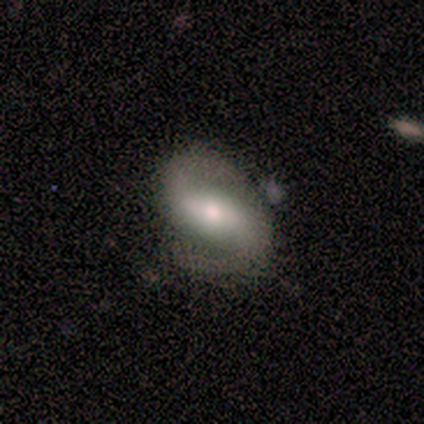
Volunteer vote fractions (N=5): Smooth or featured? 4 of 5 (80%) said featured or disk. Edge-on disk? 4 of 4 (100%) said no. Bar? 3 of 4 (75%) said strong. Spiral arms? 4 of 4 (100%) said yes. Spiral winding? 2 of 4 (50%) said medium. Spiral arm count? 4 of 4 (100%) said 2. Bulge size? 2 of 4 (50%) said small. Merging? 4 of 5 (80%) said none.